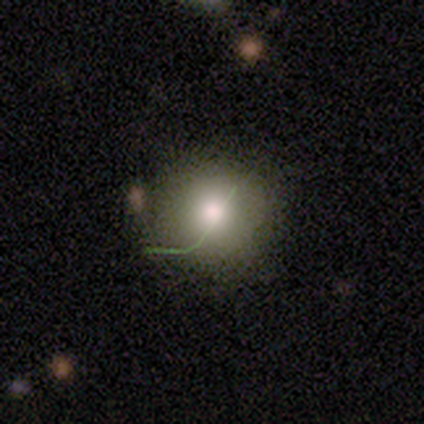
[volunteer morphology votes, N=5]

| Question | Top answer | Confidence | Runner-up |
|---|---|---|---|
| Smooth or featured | smooth | 80% | featured or disk (20%) |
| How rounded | round | 100% | — |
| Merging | none | 100% | — |